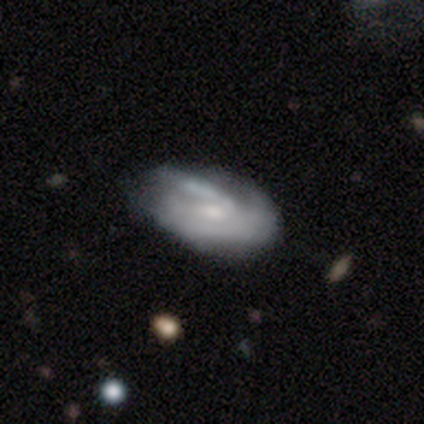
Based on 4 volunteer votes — This appears to be a featured or disk galaxy (100%) with a weak bar (67%), no spiral arms (67%) and a moderate central bulge (33%, tied with small and none). Merging: none (50%, tied with merger).